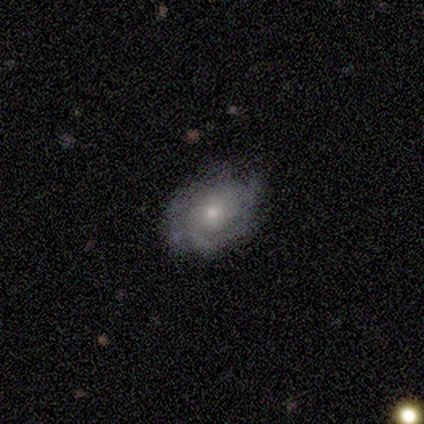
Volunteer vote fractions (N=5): Smooth or featured? 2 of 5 (40%, tied with featured or disk) said smooth. How rounded? 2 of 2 (100%) said in between. Merging? 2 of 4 (50%) said none.